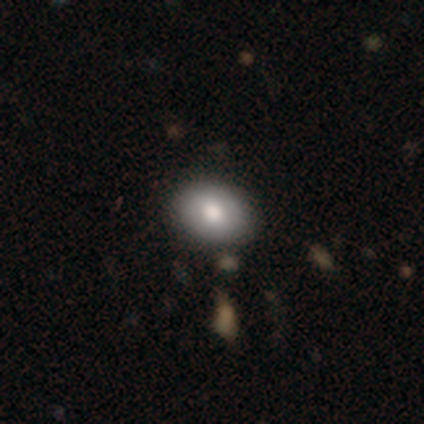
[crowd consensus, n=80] Morphology: type=smooth (71%); roundness=in between (68%); merging=none (44%).